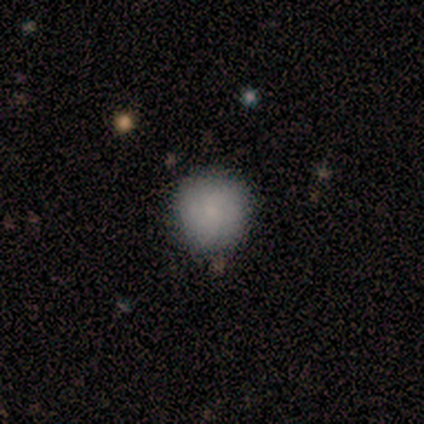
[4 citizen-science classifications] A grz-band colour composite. It shows a smooth galaxy with no disk features (75%) that is round (100%). Merging: none (100%).